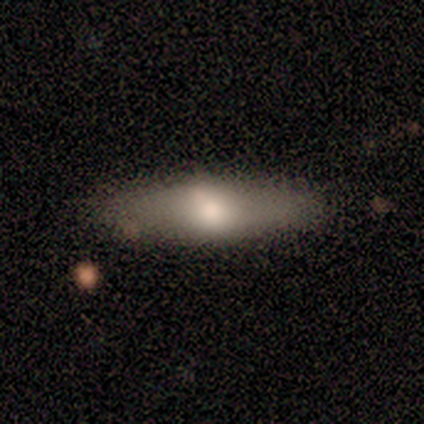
Smooth or featured?
  - smooth: 75% *
  - featured or disk: 25%
  - star or artifact: 0%
How rounded?
  - cigar-shaped: 100% *
  - round: 0%
  - in between: 0%
Merging?
  - none: 100% *
  - minor disturbance: 0%
  - major disturbance: 0%
  - merger: 0%